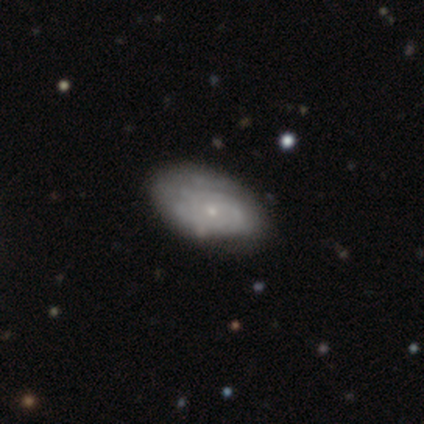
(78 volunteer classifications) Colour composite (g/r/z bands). It shows a featured or disk galaxy (71%) with no bar (93%), tight (69%) spiral arms (76%) and a small central bulge (85%). Merging: none (35%).